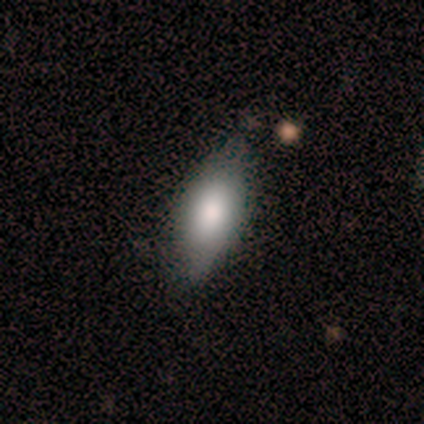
smooth-or-featured: smooth: 82% | featured or disk: 12% | star or artifact: 5%
  how-rounded: in between: 91% | cigar-shaped: 9% | round: 0%
  merging: none: 63% | minor disturbance: 29% | major disturbance: 5% | merger: 3%